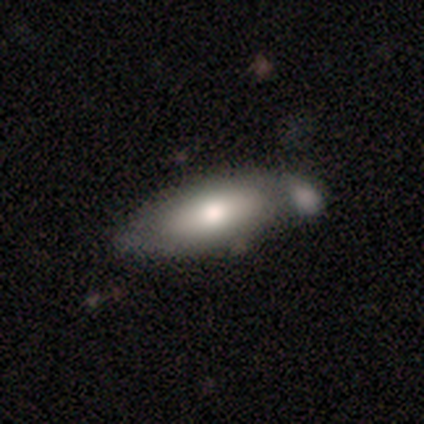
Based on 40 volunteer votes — smooth-or-featured: smooth: 65% | featured or disk: 28% | star or artifact: 8%
  how-rounded: in between: 69% | cigar-shaped: 27% | round: 4%
  merging: none: 32% | merger: 24% | minor disturbance: 22% | major disturbance: 5%